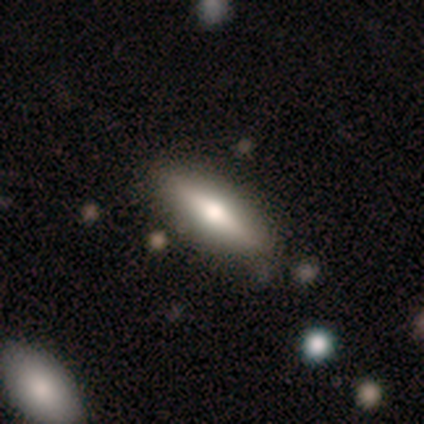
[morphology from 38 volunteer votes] This appears to be a smooth galaxy with no disk features (61%) that is cigar-shaped (65%). Merging: none (78%).